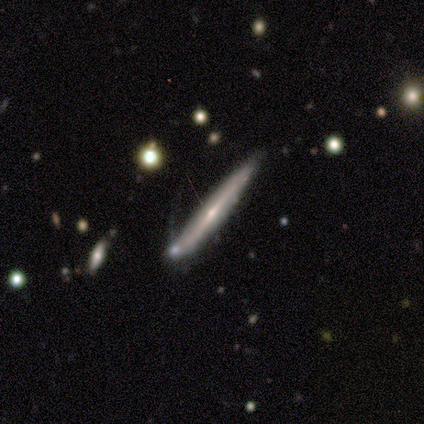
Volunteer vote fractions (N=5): Overall: featured or disk (100%). Edge-on disk: yes (80%). Edge-on bulge: rounded (50%; boxy 25%). Merging: none (80%).